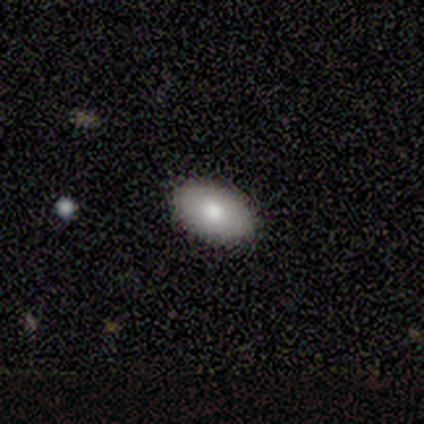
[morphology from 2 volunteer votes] Overall: smooth (100%). How rounded: in between (50%, tied with cigar-shaped). Merging: none (100%).